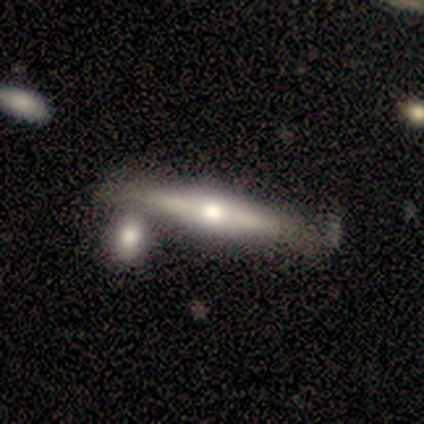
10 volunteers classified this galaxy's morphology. Smooth or featured: featured or disk — 70% (smooth — 30%)
Edge-on disk: yes — 86% (no — 14%)
Edge-on bulge: rounded — 100%
Merging: none — 60% (merger — 20%)